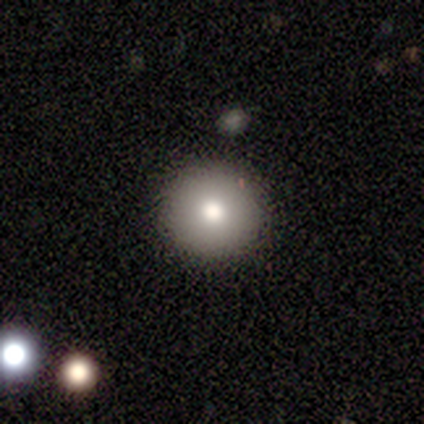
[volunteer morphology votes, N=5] Smooth or featured? smooth (40%, tied with featured or disk)
How rounded? round (100%)
Merging? none (100%)